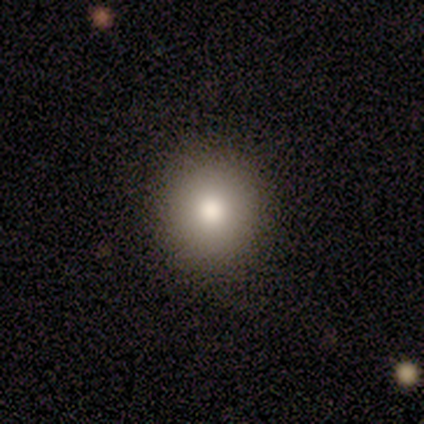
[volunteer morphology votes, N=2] This appears to be a smooth galaxy with no disk features (100%) that is round (50%, tied with in between). Merging: none (50%, tied with minor disturbance).